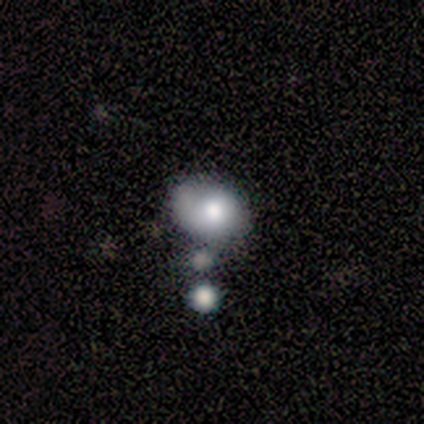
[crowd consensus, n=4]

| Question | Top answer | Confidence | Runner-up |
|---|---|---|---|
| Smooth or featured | smooth | 50% | featured or disk (25%) |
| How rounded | round | 50% | tied: in between (50%) |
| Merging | minor disturbance | 67% | none (33%) |